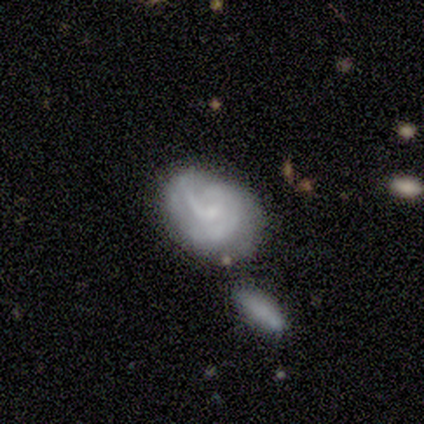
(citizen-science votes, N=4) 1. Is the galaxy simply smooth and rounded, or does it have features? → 75% featured or disk, 25% star or artifact, 0% smooth.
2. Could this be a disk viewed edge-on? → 100% no, 0% yes.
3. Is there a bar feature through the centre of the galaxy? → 100% weak, 0% strong, 0% no.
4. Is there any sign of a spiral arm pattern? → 67% yes, 33% no.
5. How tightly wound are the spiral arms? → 50% tight (tied), 50% medium (tied), 0% loose.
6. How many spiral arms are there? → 50% 3 (tied), 50% can't tell (tied), 0% 1, 0% 2, 0% 4, 0% more than 4.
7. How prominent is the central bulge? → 67% small, 33% none, 0% dominant, 0% large, 0% moderate.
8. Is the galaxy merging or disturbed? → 67% none, 33% minor disturbance, 0% major disturbance, 0% merger.